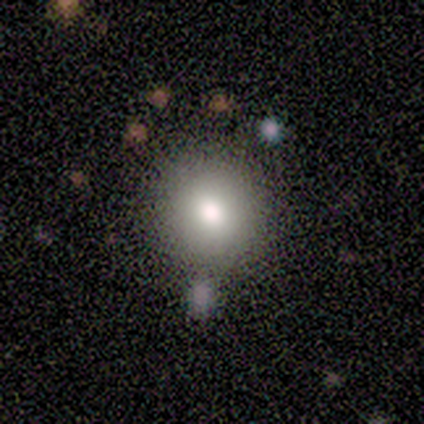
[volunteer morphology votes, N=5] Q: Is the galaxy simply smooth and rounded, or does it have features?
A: smooth — 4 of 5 (80%).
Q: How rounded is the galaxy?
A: round — 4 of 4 (100%).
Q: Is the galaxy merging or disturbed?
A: none — 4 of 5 (80%).